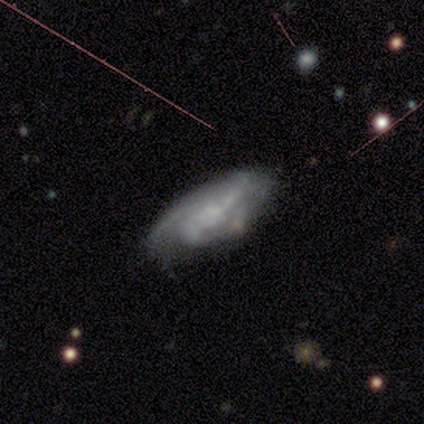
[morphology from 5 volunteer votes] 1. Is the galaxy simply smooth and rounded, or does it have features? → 80% featured or disk, 20% smooth, 0% star or artifact.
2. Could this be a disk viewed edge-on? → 100% no, 0% yes.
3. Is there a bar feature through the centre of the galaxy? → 50% weak (tied), 50% no (tied), 0% strong.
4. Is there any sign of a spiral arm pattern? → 100% yes, 0% no.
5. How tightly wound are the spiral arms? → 50% medium (tied), 50% loose (tied), 0% tight.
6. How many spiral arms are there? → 50% 2 (tied), 50% 3 (tied), 0% 1, 0% 4, 0% more than 4, 0% can't tell.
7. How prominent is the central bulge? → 75% small, 25% dominant, 0% large, 0% moderate, 0% none.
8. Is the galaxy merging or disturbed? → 80% none, 20% minor disturbance, 0% major disturbance, 0% merger.